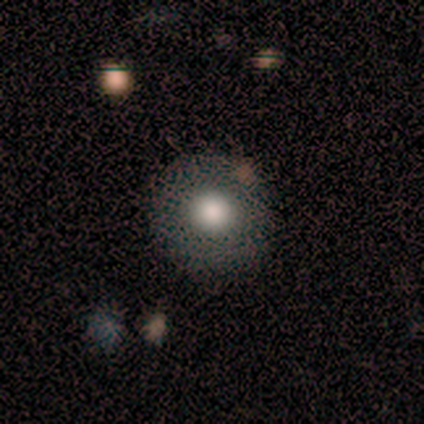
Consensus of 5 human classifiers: This appears to be a smooth galaxy with no disk features (60%) that is round (100%). Merging: none (100%).